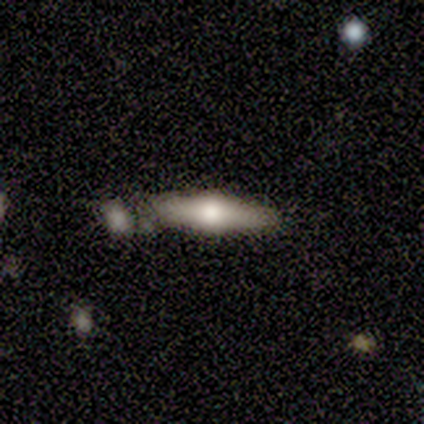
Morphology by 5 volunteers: This is likely a featured or disk galaxy (60%). It is clearly viewed edge-on (100%). Edge-on bulge: clearly rounded (100%). Merging: marginally none (40%, tied with minor disturbance).